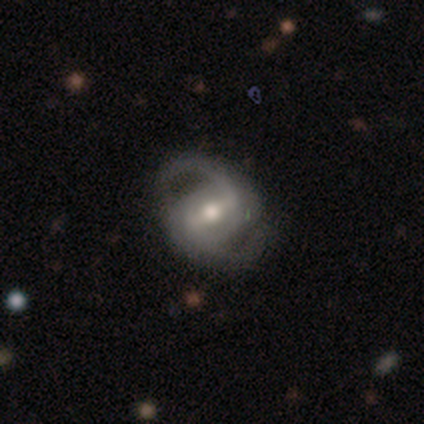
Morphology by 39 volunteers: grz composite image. It shows a featured or disk galaxy (92%) with a strong bar (56%), 2 (92%) medium (47%) spiral arms (100%) and a moderate central bulge (69%). Merging: none (49%).